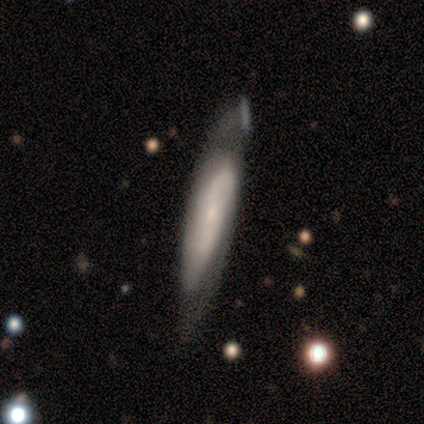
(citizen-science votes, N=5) Smooth or featured?
  - featured or disk: 80% *
  - smooth: 20%
  - star or artifact: 0%
Edge-on disk?
  - no: 75% *
  - yes: 25%
Bar?
  - strong: 67% *
  - no: 33%
  - weak: 0%
Spiral arms?
  - yes: 100% *
  - no: 0%
Spiral winding?
  - medium: 67% *
  - tight: 33%
  - loose: 0%
Spiral arm count?
  - 2: 100% *
  - 1: 0%
  - 3: 0%
  - 4: 0%
  - more than 4: 0%
  - can't tell: 0%
Bulge size?
  - small: 67% *
  - large: 33%
  - dominant: 0%
  - moderate: 0%
  - none: 0%
Merging?
  - none: 40% * (tied)
  - minor disturbance: 40% * (tied)
  - major disturbance: 20%
  - merger: 0%